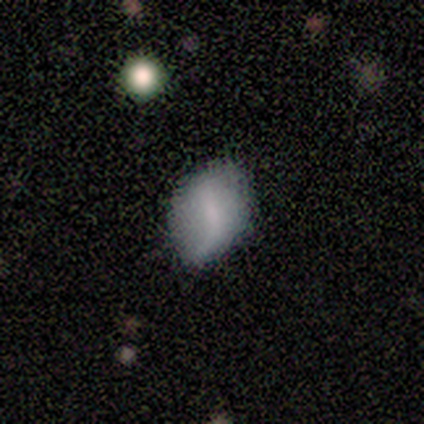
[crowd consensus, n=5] This is clearly a smooth galaxy (80%). How rounded: possibly round (50%, tied with in between). Merging: likely none (75%).